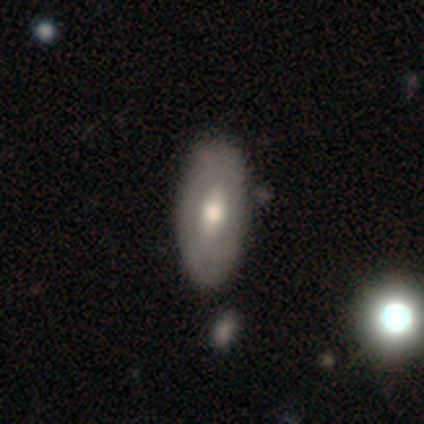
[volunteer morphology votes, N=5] A featured or disk galaxy (80%) with a weak bar (75%), no spiral arms (100%) and a moderate central bulge (75%). Merging: minor disturbance (80%).